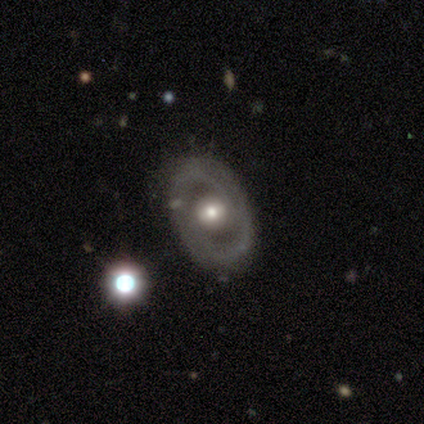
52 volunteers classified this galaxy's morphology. Smooth or featured? featured or disk (75%)
Edge-on disk? no (92%)
Bar? no (61%)
Spiral arms? yes (53%)
Spiral winding? tight (37%, tied with loose)
Spiral arm count? 2 (74%)
Bulge size? moderate (64%)
Merging? none (73%)